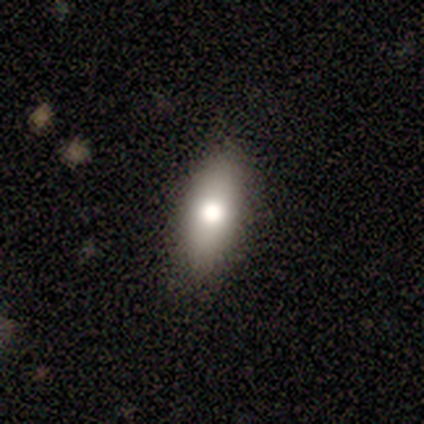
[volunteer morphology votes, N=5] A smooth galaxy with no disk features (80%) that is in between round and cigar-shaped (75%).

Vote fractions:
- Smooth or featured? smooth: 80% / star or artifact: 20% / featured or disk: 0%
- How rounded? in between: 75% / cigar-shaped: 25% / round: 0%
- Merging? none: 100% / minor disturbance: 0% / major disturbance: 0% / merger: 0%